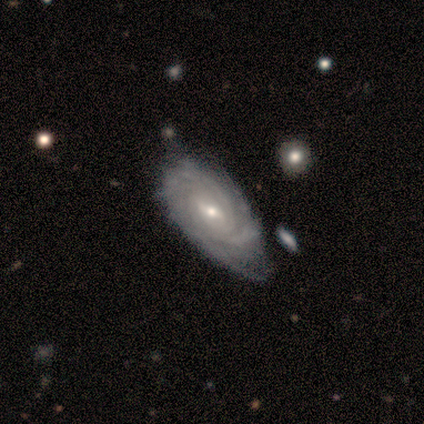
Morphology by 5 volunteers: smooth-or-featured: featured or disk: 80% | star or artifact: 20% | smooth: 0%
  disk-edge-on: no: 100% | yes: 0%
    bar: weak: 100% | strong: 0% | no: 0%
    has-spiral-arms: yes: 100% | no: 0%
      spiral-winding: tight: 100% | medium: 0% | loose: 0%
      spiral-arm-count: can't tell: 75% | 3: 25% | 1: 0% | 2: 0% | 4: 0% | more than 4: 0%
    bulge-size: small: 75% | moderate: 25% | dominant: 0% | large: 0% | none: 0%
  merging: minor disturbance: 75% | none: 25% | major disturbance: 0% | merger: 0%